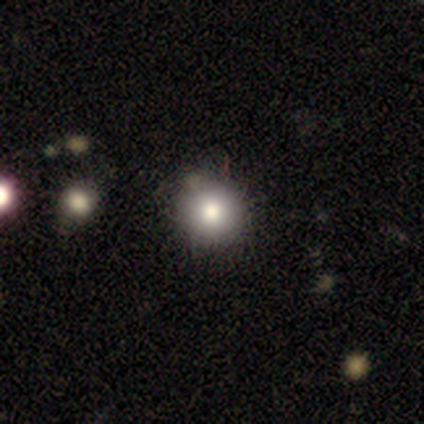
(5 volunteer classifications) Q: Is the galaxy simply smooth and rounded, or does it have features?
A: smooth — 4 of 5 (80%).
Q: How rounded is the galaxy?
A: round — 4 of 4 (100%).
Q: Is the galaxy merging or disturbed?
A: none — 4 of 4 (100%).